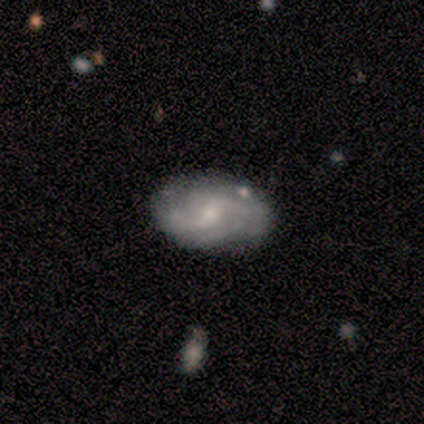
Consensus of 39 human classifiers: This appears to be a featured or disk galaxy (85%) with a weak bar (55%), 2 (41%) medium (34%, tied with loose) spiral arms (97%) and a small central bulge (61%). Merging: none (84%).